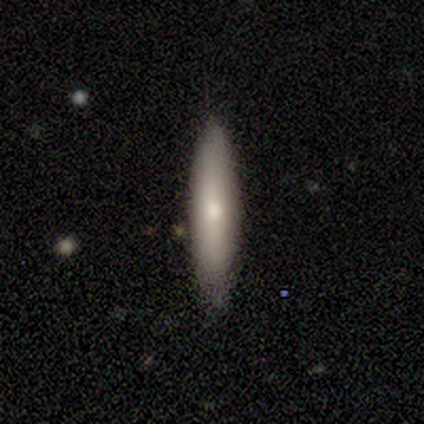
Smooth or featured: smooth — 80% (featured or disk — 20%)
How rounded: cigar-shaped — 100%
Merging: none — 100%